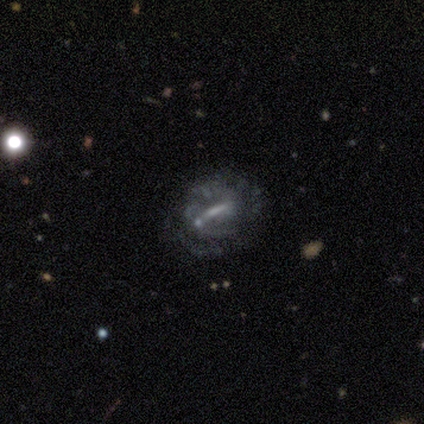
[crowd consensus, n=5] Volunteers were most divided on "spiral winding": medium: 67%, loose: 33%, tight: 0%. More confident: edge-on disk — no (100%); bar — strong (100%); spiral arms — yes (100%); merging — none (75%); spiral arm count — 2 (67%); bulge size — none (67%); smooth or featured — featured or disk (60%).